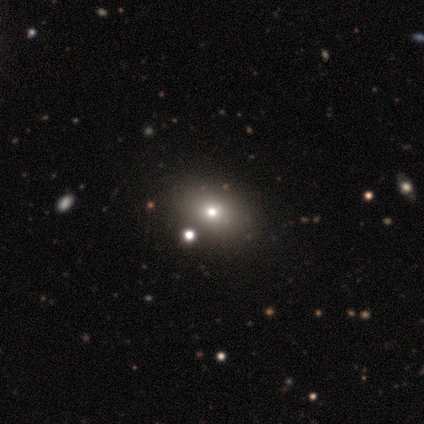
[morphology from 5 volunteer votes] Overall: smooth (40%, tied with star or artifact). How rounded: in between (100%). Merging: none (100%).